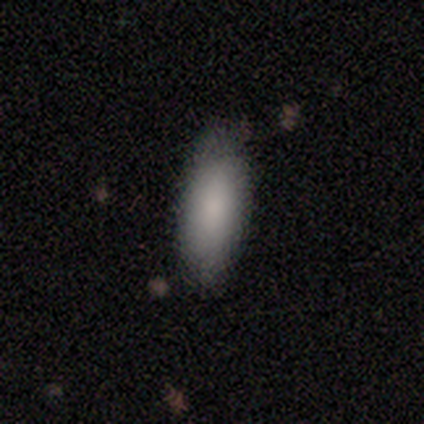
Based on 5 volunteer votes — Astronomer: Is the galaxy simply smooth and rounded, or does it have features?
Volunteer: smooth — 100%.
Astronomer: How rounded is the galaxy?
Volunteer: in between — 100%.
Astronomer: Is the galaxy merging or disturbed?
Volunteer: none — 80%.